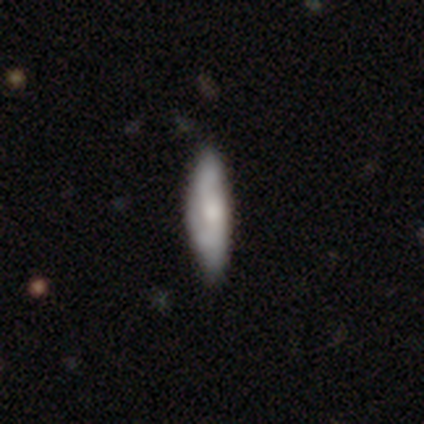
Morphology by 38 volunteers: Smooth or featured? featured or disk (55%)
Edge-on disk? no (67%)
Bar? no (93%)
Spiral arms? yes (71%)
Spiral winding? loose (50%)
Spiral arm count? 2 (90%)
Bulge size? moderate (64%)
Merging? none (57%)